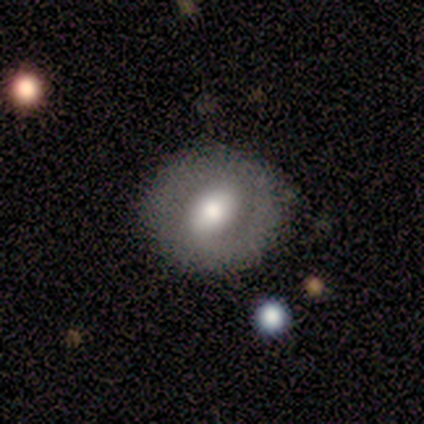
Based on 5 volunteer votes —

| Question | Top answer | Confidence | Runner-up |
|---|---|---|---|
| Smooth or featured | smooth | 80% | featured or disk (20%) |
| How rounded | round | 75% | in between (25%) |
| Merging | none | 40% | tied: minor disturbance (40%) |